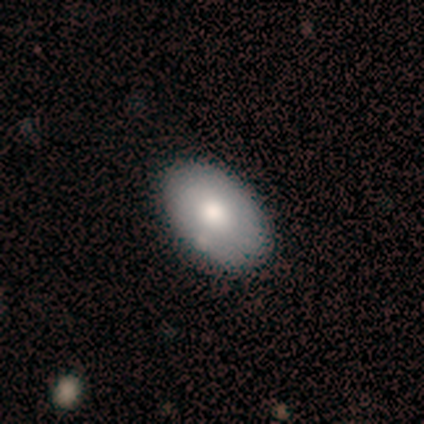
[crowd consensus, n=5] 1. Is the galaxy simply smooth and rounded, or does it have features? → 80% smooth, 20% featured or disk, 0% star or artifact.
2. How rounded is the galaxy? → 100% in between, 0% round, 0% cigar-shaped.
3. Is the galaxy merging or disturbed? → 80% none, 20% minor disturbance, 0% major disturbance, 0% merger.